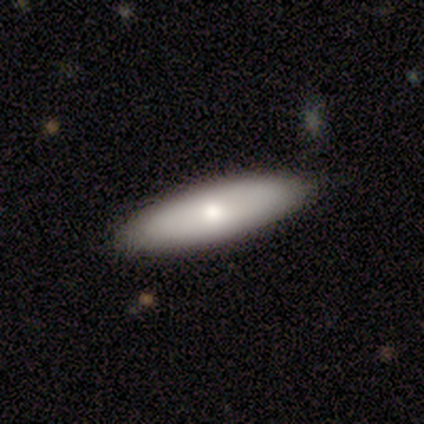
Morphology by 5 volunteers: Smooth or featured: smooth — 80% (star or artifact — 20%)
How rounded: in between — 75% (cigar-shaped — 25%)
Merging: none — 75% (major disturbance — 25%)